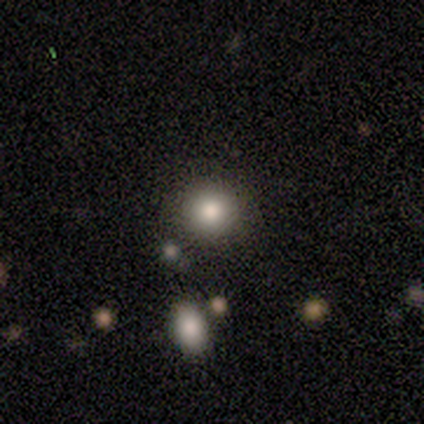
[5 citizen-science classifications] Volunteers were most divided on "smooth or featured": smooth: 80%, star or artifact: 20%, featured or disk: 0%. More confident: how rounded — round (100%); merging — none (100%).